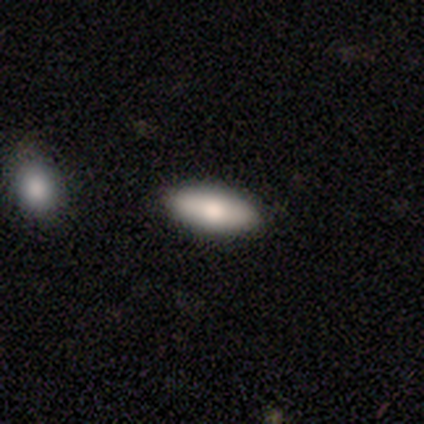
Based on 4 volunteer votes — Smooth or featured: smooth — 75% (featured or disk — 25%)
How rounded: in between — 100%
Merging: none — 100%